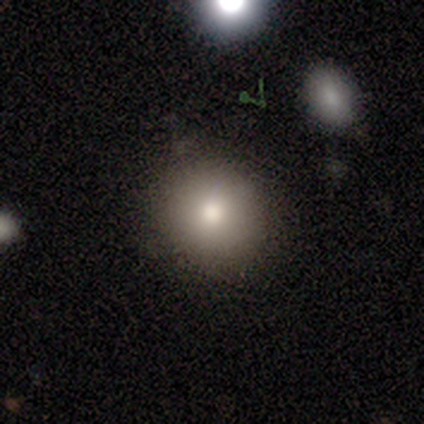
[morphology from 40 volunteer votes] Volunteers were most divided on "merging": none: 81%, minor disturbance: 14%, major disturbance: 5%, merger: 0%. More confident: smooth or featured — smooth (88%); how rounded — round (86%).